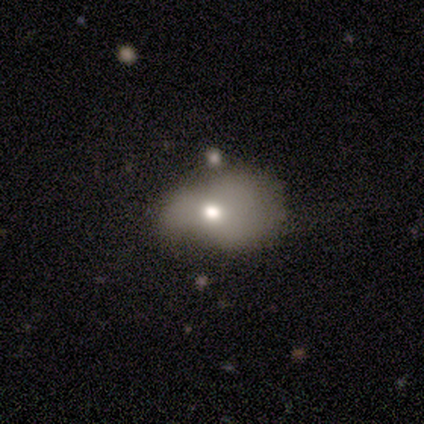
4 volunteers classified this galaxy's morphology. Smooth or featured? 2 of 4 (50%) said star or artifact.